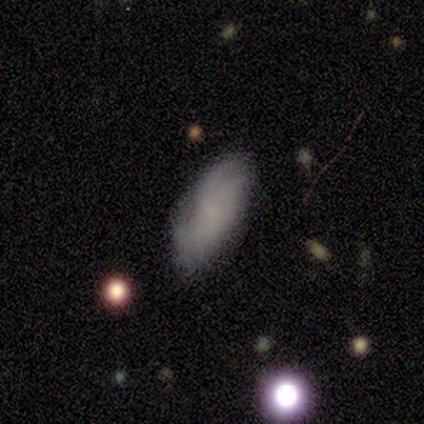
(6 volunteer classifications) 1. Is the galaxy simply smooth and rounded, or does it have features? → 67% smooth, 33% featured or disk, 0% star or artifact.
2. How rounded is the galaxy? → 100% in between, 0% round, 0% cigar-shaped.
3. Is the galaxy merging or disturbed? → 50% minor disturbance, 33% none, 17% major disturbance, 0% merger.